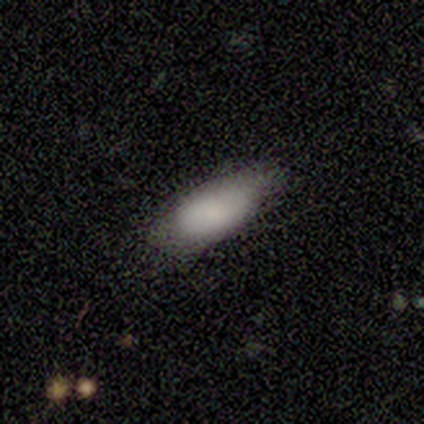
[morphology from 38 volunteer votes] Smooth or featured: smooth — 74% (featured or disk — 21%)
How rounded: in between — 93% (round — 4%)
Merging: none — 72% (minor disturbance — 22%)